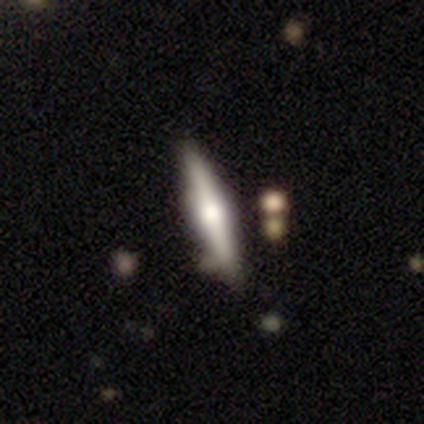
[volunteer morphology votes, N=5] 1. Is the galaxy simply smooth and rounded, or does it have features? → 80% featured or disk, 20% star or artifact, 0% smooth.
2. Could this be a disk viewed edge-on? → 100% yes, 0% no.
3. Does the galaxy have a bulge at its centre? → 75% rounded, 25% boxy, 0% none.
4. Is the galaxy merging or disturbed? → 100% none, 0% minor disturbance, 0% major disturbance, 0% merger.